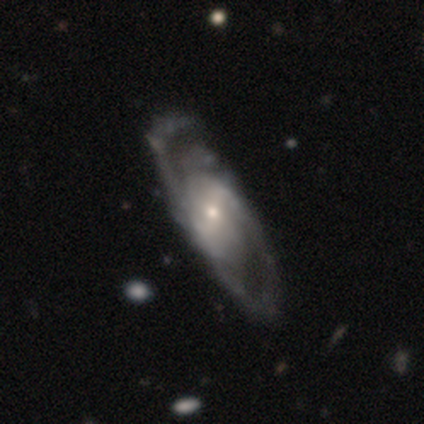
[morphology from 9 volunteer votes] This is clearly a featured or disk galaxy (100%). It is clearly not viewed edge-on (89%). Bar: possibly weak (50%). Spiral arm pattern: likely yes (75%). Spiral arm count: likely 2 (67%). Spiral winding: possibly medium (50%). Central bulge: likely small (62%). Merging: clearly none (89%).